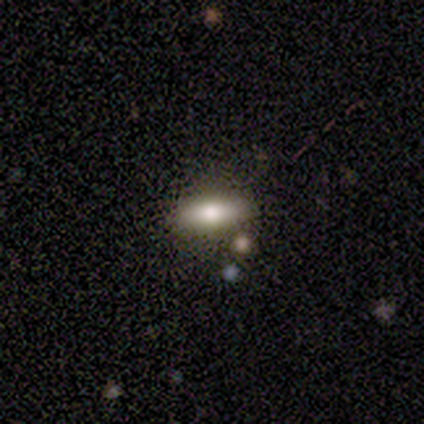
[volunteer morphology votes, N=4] A smooth galaxy with no disk features (75%) that is cigar-shaped (67%).

Vote fractions:
- Smooth or featured? smooth: 75% / featured or disk: 25% / star or artifact: 0%
- How rounded? cigar-shaped: 67% / in between: 33% / round: 0%
- Merging? none: 75% / merger: 25% / minor disturbance: 0% / major disturbance: 0%